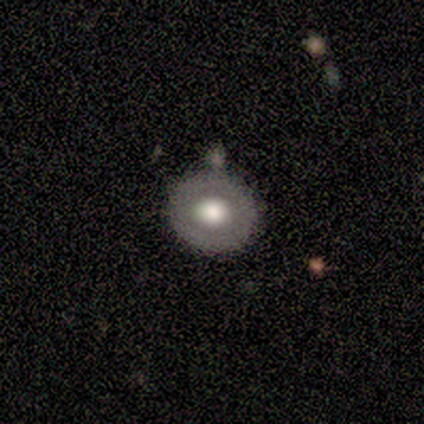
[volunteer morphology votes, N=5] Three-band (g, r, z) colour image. It shows a smooth galaxy with no disk features (80%) that is round (100%). Merging: none (80%).